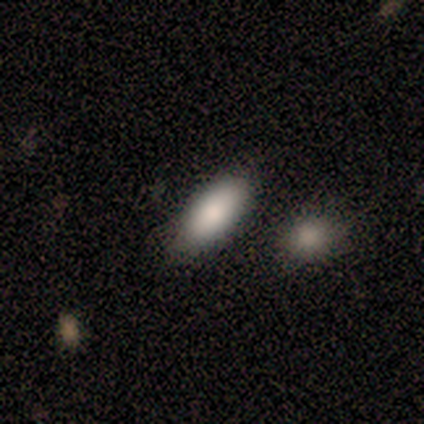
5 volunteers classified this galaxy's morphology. Overall: smooth (100%). How rounded: in between (100%). Merging: none (60%; minor disturbance 40%).